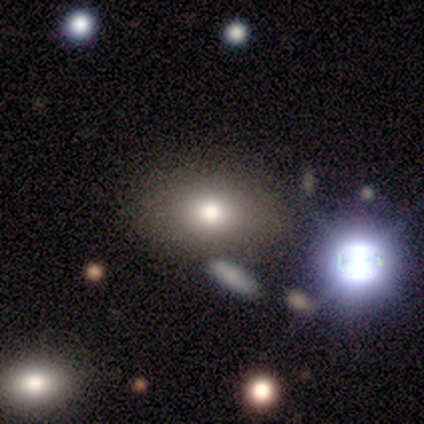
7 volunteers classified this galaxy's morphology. Smooth or featured?
  - smooth: 57% *
  - featured or disk: 29%
  - star or artifact: 14%
How rounded?
  - round: 50% * (tied)
  - in between: 50% * (tied)
  - cigar-shaped: 0%
Merging?
  - none: 100% *
  - minor disturbance: 0%
  - major disturbance: 0%
  - merger: 0%